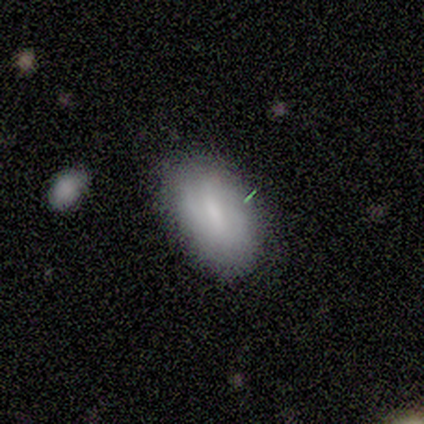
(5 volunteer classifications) Smooth or featured? 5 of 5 (100%) said smooth. How rounded? 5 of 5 (100%) said in between. Merging? 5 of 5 (100%) said none.